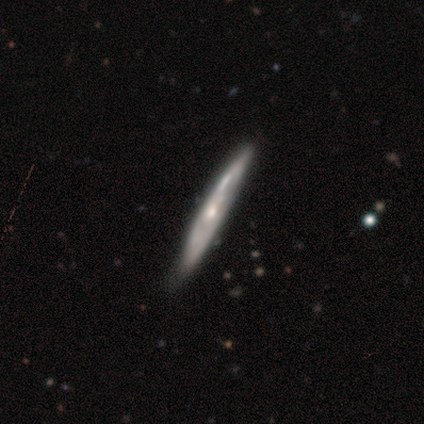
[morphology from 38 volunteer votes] Smooth or featured? featured or disk (66%)
Edge-on disk? yes (80%)
Edge-on bulge? rounded (60%)
Merging? none (50%)